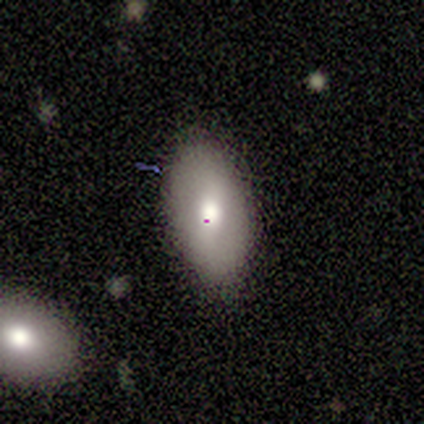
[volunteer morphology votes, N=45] type=smooth (60%); roundness=in between (100%); merging=none (81%).